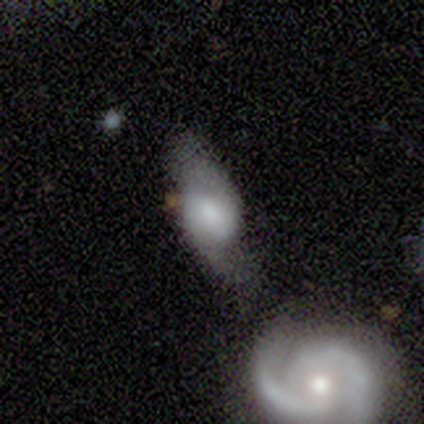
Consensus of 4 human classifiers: Q: Smooth or featured?
A: smooth (50%); tied with: featured or disk (50%)
Q: How rounded?
A: round (50%); tied with: in between (50%)
Q: Merging?
A: major disturbance (50%); tied with: merger (50%)